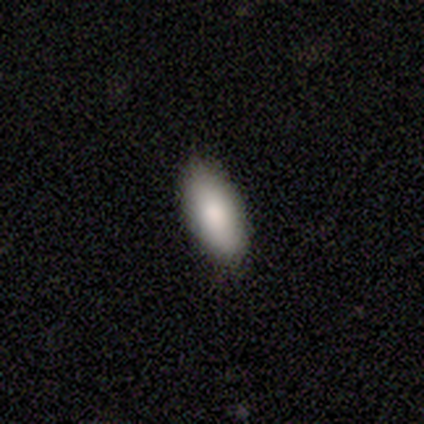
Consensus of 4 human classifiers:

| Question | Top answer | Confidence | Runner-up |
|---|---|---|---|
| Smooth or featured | smooth | 75% | featured or disk (25%) |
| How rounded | in between | 100% | — |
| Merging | none | 75% | minor disturbance (25%) |